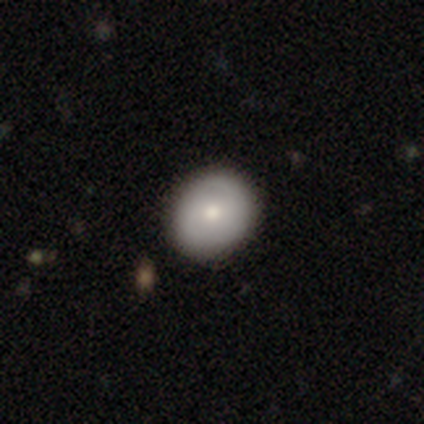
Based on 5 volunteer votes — smooth-or-featured: smooth: 100% | featured or disk: 0% | star or artifact: 0%
  how-rounded: round: 80% | in between: 20% | cigar-shaped: 0%
  merging: none: 80% | minor disturbance: 20% | major disturbance: 0% | merger: 0%